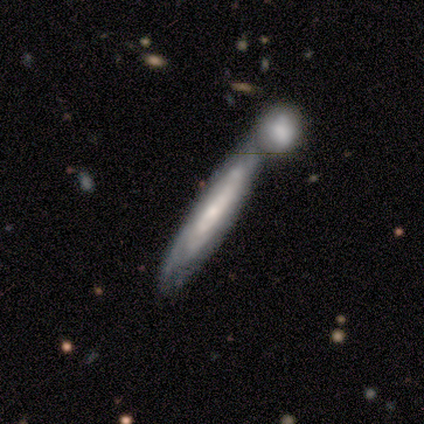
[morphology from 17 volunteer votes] Smooth or featured? featured or disk (65%)
Edge-on disk? no (73%)
Bar? no (88%)
Spiral arms? yes (75%)
Spiral winding? tight (83%)
Spiral arm count? can't tell (100%)
Bulge size? small (62%)
Merging? merger (53%)